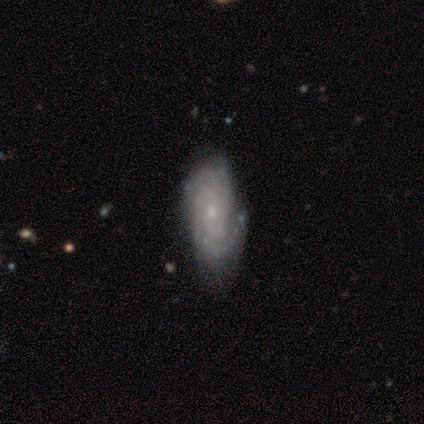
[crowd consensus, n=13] A featured or disk galaxy (92%) with no bar (92%), tight (70%) spiral arms (83%) and a small central bulge (92%).

Vote fractions:
- Smooth or featured? featured or disk: 92% / smooth: 8% / star or artifact: 0%
- Edge-on disk? no: 100% / yes: 0%
- Bar? no: 92% / weak: 8% / strong: 0%
- Spiral arms? yes: 83% / no: 17%
- Spiral winding? tight: 70% / medium: 20% / loose: 10%
- Spiral arm count? can't tell: 30% / 2: 20% / 3: 20% / 4: 20% / more than 4: 10% / 1: 0%
- Bulge size? small: 92% / large: 8% / dominant: 0% / moderate: 0% / none: 0%
- Merging? none: 69% / minor disturbance: 23% / major disturbance: 8% / merger: 0%